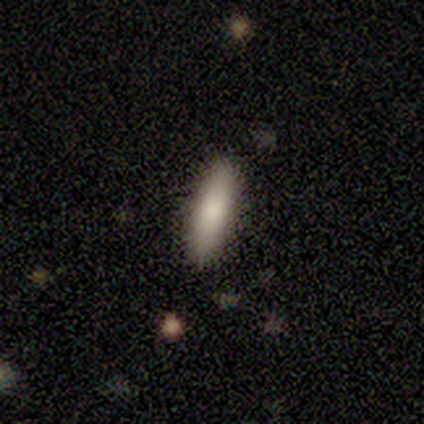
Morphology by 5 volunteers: smooth_or_featured: smooth (p=0.80) [alt: featured or disk p=0.20]
how_rounded: cigar-shaped (p=0.75) [alt: in between p=0.25]
merging: none (p=0.80) [alt: minor disturbance p=0.20]